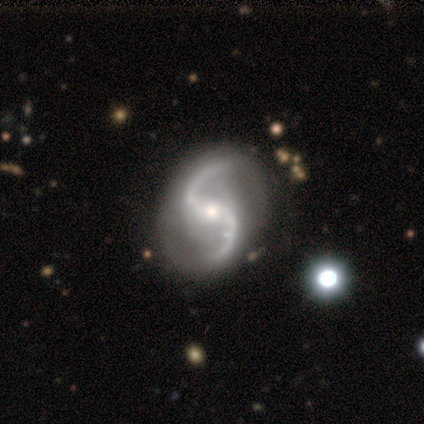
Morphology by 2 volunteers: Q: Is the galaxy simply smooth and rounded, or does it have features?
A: featured or disk — 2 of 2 (100%).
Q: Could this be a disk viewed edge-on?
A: no — 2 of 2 (100%).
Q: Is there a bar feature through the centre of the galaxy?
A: strong — 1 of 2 (50%, tied with no).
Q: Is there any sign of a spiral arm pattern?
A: yes — 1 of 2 (50%, tied with no).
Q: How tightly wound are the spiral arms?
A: medium — 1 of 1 (100%).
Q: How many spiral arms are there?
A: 2 — 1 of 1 (100%).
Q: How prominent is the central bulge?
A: moderate — 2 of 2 (100%).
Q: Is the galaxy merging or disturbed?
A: none — 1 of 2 (50%, tied with major disturbance).